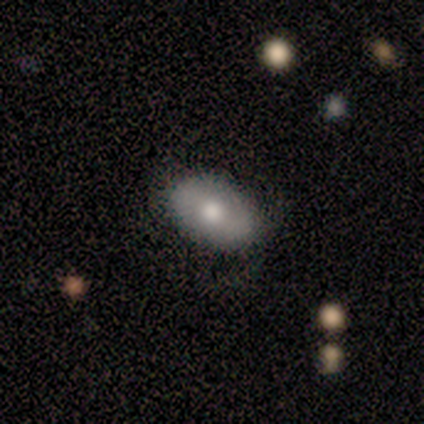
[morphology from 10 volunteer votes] A smooth galaxy with no disk features (60%) that is in between round and cigar-shaped (100%).

Vote fractions:
- Smooth or featured? smooth: 60% / featured or disk: 40% / star or artifact: 0%
- How rounded? in between: 100% / round: 0% / cigar-shaped: 0%
- Merging? none: 50% / minor disturbance: 40% / major disturbance: 10% / merger: 0%